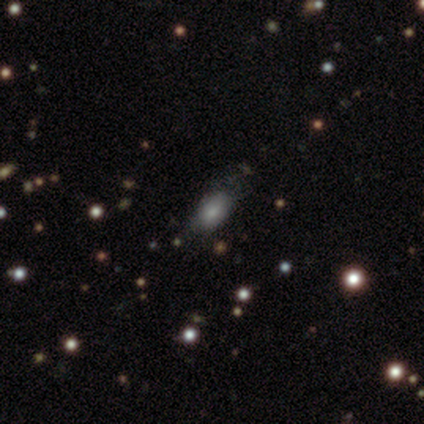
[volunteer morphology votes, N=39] type=smooth (87%); roundness=in between (82%); merging=none (50%).